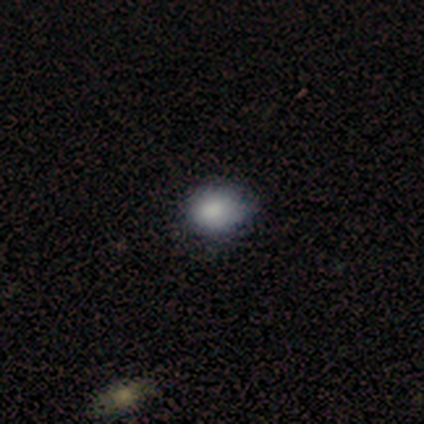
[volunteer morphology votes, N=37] Smooth or featured? 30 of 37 (81%) said smooth. How rounded? 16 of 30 (53%) said in between. Merging? 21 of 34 (62%) said none.